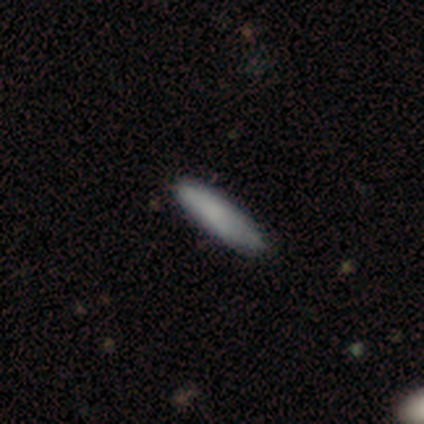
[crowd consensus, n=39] Smooth or featured?
  - smooth: 87% *
  - featured or disk: 10%
  - star or artifact: 3%
How rounded?
  - cigar-shaped: 91% *
  - in between: 9%
  - round: 0%
Merging?
  - none: 76% *
  - minor disturbance: 16%
  - major disturbance: 8%
  - merger: 0%